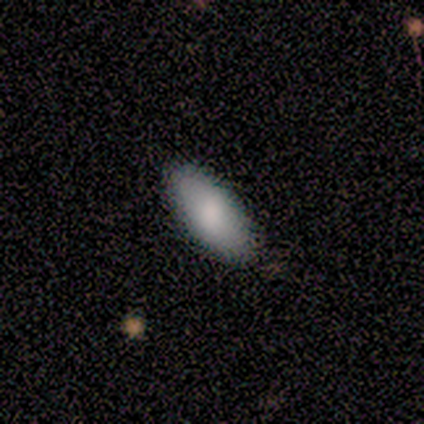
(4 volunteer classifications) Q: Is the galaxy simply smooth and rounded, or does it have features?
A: smooth — 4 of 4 (100%).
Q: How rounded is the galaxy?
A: in between — 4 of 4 (100%).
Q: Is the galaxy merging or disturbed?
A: none — 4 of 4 (100%).